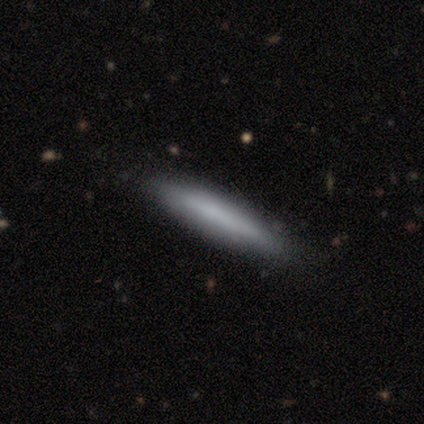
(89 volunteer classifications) This is likely a smooth galaxy (76%). How rounded: clearly cigar-shaped (93%). Merging: clearly none (82%).